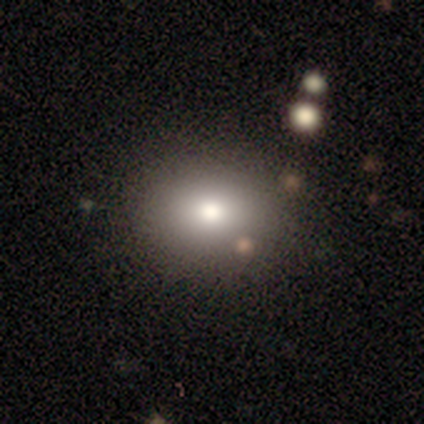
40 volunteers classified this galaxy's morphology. Smooth or featured? 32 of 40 (80%) said smooth. How rounded? 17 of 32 (53%) said in between. Merging? 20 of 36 (56%) said none.